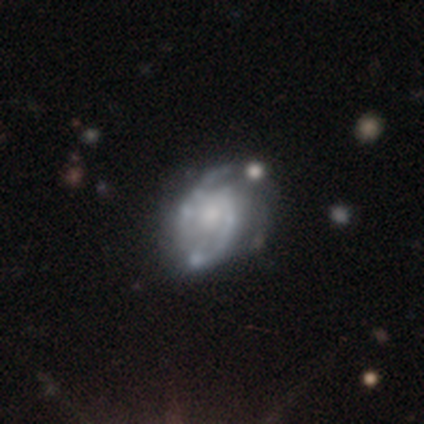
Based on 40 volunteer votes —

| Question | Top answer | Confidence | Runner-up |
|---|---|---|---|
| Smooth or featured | featured or disk | 92% | smooth (5%) |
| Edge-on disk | no | 100% | — |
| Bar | no | 62% | weak (38%) |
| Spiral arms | yes | 95% | no (5%) |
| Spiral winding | medium | 57% | loose (26%) |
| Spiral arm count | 2 | 83% | can't tell (14%) |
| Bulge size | moderate | 43% | small (24%) |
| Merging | none | 36% | minor disturbance (13%) |